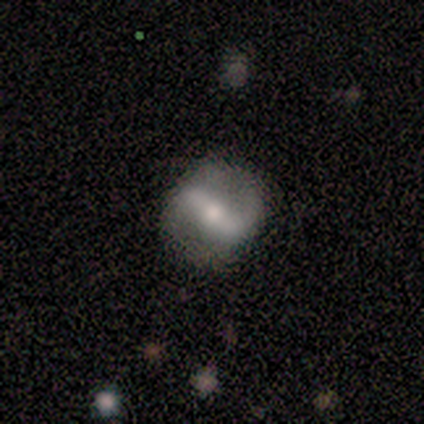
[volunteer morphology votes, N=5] Smooth or featured: featured or disk — 80% (smooth — 20%)
Edge-on disk: no — 100%
Bar: strong — 75% (weak — 25%)
Spiral arms: yes — 100%
Spiral winding: medium — 50% (tight — 25%)
Spiral arm count: 2 — 100%
Bulge size: moderate — 50% (tied with small — 50%)
Merging: none — 100%